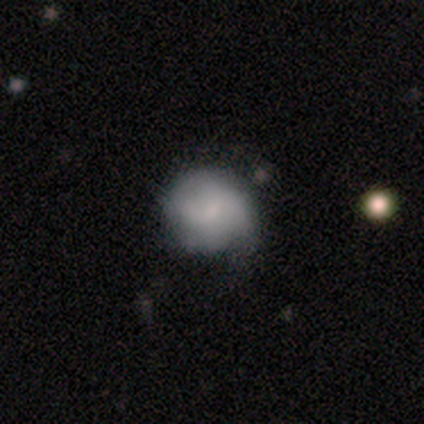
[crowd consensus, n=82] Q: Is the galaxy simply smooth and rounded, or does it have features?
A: smooth — 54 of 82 (66%).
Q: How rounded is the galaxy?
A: round — 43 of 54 (80%).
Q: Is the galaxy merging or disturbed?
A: none — 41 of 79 (52%).